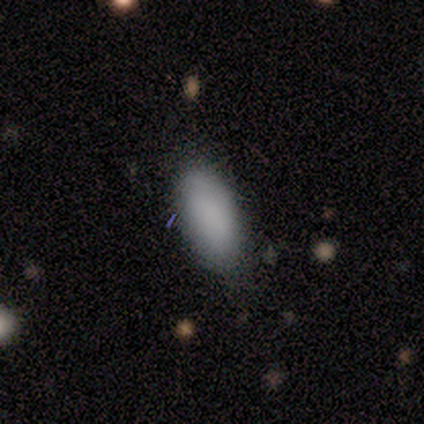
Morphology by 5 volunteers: Smooth or featured: smooth — 100%
How rounded: in between — 80% (cigar-shaped — 20%)
Merging: none — 80% (minor disturbance — 20%)